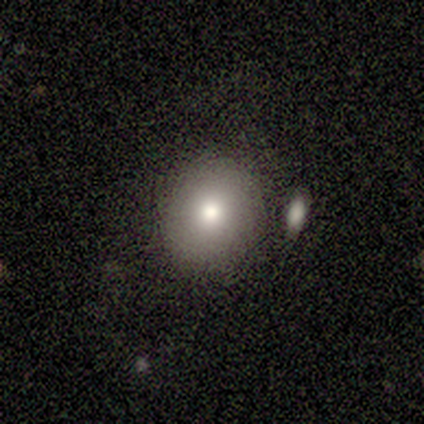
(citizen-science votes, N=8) smooth-or-featured: smooth: 75% | featured or disk: 25% | star or artifact: 0%
  how-rounded: round: 100% | in between: 0% | cigar-shaped: 0%
  merging: none: 75% | minor disturbance: 12% | merger: 12% | major disturbance: 0%